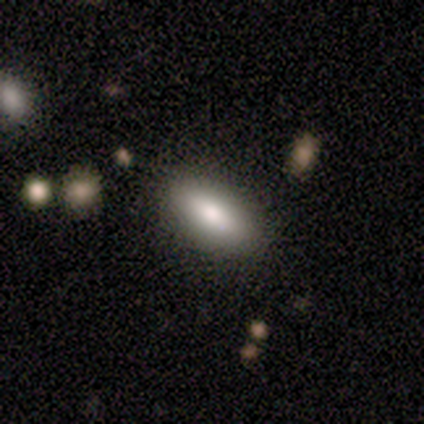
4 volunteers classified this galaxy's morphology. A smooth galaxy with no disk features (75%) that is in between round and cigar-shaped (100%). Merging: none (100%).